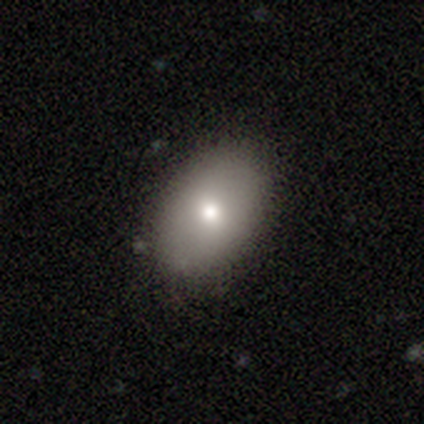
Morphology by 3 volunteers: Smooth or featured? 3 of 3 (100%) said smooth. How rounded? 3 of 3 (100%) said in between. Merging? 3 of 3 (100%) said none.